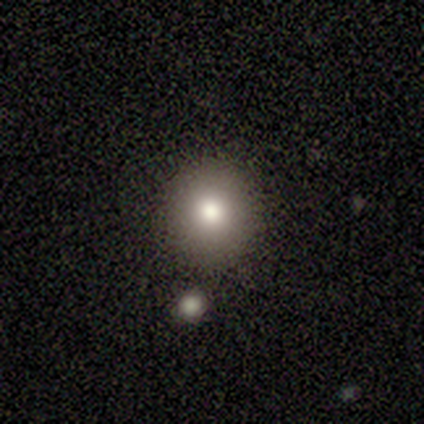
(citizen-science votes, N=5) Overall: smooth (60%; featured or disk 20%). How rounded: round (100%). Merging: none (100%).